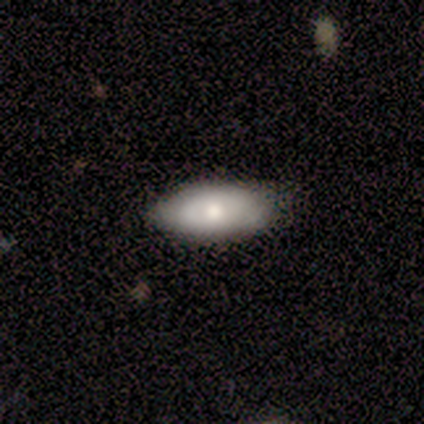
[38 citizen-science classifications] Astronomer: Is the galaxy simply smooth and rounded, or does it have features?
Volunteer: smooth — 61% (runner-up: featured or disk, 37%).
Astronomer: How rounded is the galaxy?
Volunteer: in between — 78%.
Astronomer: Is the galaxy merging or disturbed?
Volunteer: none — 65%.